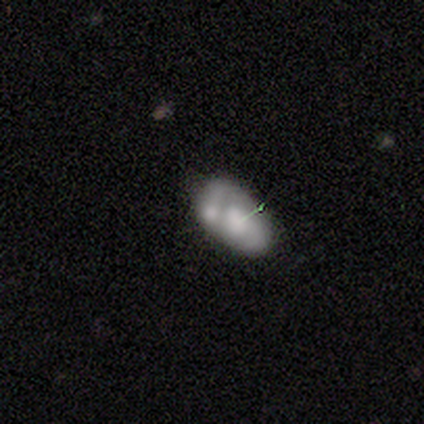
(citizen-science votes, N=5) Smooth or featured: featured or disk — 100%
Edge-on disk: no — 80% (yes — 20%)
Bar: weak — 50% (tied with no — 50%)
Spiral arms: no — 75% (yes — 25%)
Bulge size: moderate — 75% (small — 25%)
Merging: none — 40% (tied with merger — 40%)